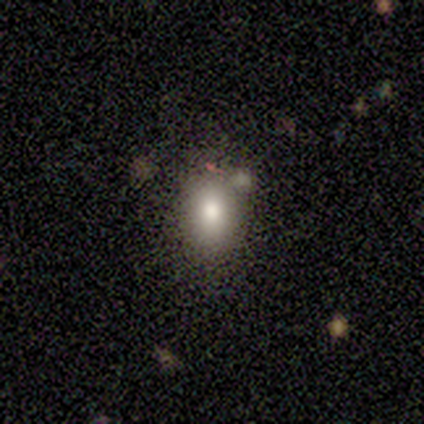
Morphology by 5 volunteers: This appears to be a smooth galaxy with no disk features (40%, tied with star or artifact) that is in between round and cigar-shaped (100%). Merging: none (33%, tied with major disturbance and merger).